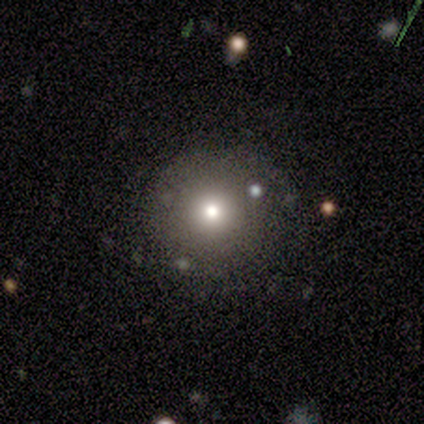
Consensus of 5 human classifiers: smooth 80%, star or artifact 20%, featured or disk 0%. Down the decision tree: how rounded — round (100%); merging — none (75%).